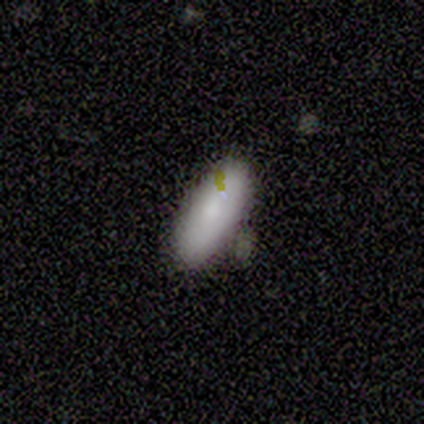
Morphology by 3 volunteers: smooth 100%, featured or disk 0%, star or artifact 0%. Down the decision tree: how rounded — in between (67%); merging — none (67%).